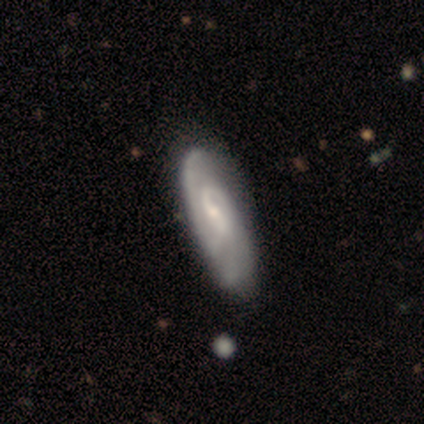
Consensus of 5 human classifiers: Smooth or featured: featured or disk — 60% (smooth — 40%)
Edge-on disk: no — 100%
Bar: strong — 33% (tied with weak — 33%; no — 33%)
Spiral arms: yes — 100%
Spiral winding: tight — 33% (tied with medium — 33%; loose — 33%)
Spiral arm count: 1 — 33% (tied with 2 — 33%; can't tell — 33%)
Bulge size: small — 67% (none — 33%)
Merging: minor disturbance — 60% (none — 40%)